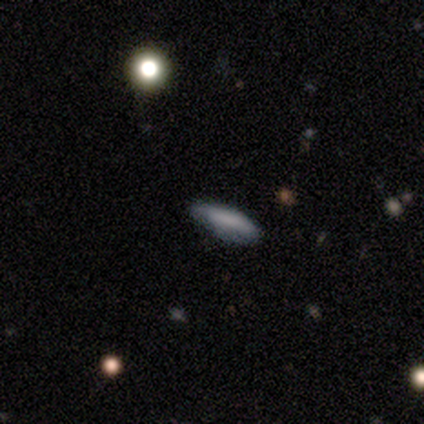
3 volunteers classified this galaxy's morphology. smooth-or-featured: smooth: 100% | featured or disk: 0% | star or artifact: 0%
  how-rounded: cigar-shaped: 67% | in between: 33% | round: 0%
  merging: minor disturbance: 67% | none: 33% | major disturbance: 0% | merger: 0%